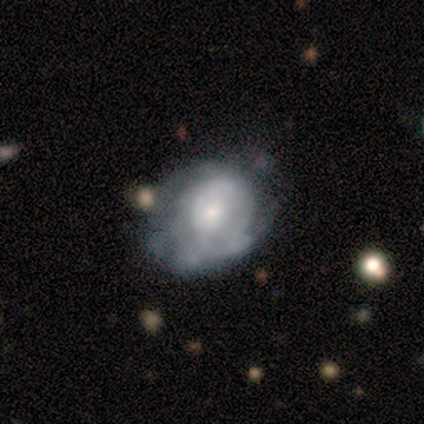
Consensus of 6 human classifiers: Smooth or featured?
  - smooth: 50% * (tied)
  - featured or disk: 50% * (tied)
  - star or artifact: 0%
How rounded?
  - in between: 100% *
  - round: 0%
  - cigar-shaped: 0%
Merging?
  - none: 67% *
  - minor disturbance: 33%
  - major disturbance: 0%
  - merger: 0%